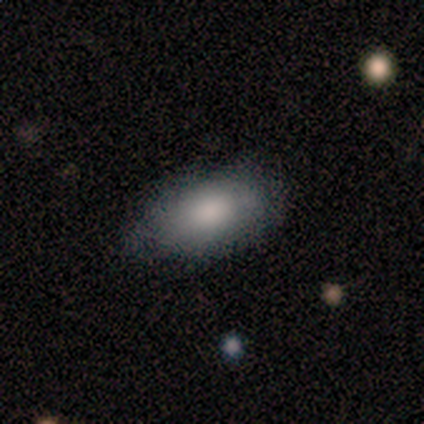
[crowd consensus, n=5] Smooth or featured? smooth (100%)
How rounded? in between (100%)
Merging? minor disturbance (80%)